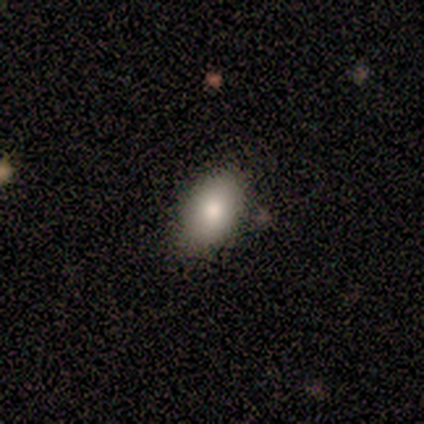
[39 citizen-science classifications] Smooth or featured: smooth — 74% (featured or disk — 13%)
How rounded: in between — 86% (round — 14%)
Merging: none — 65% (minor disturbance — 6%)